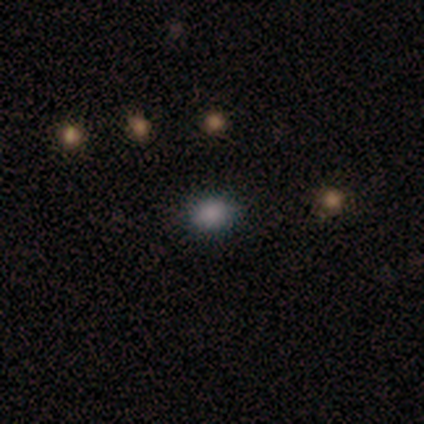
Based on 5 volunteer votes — smooth_or_featured: smooth (p=1.00)
how_rounded: round (p=0.60) [alt: in between p=0.40]
merging: none (p=1.00)